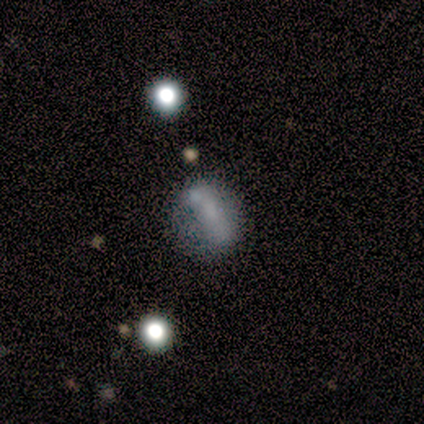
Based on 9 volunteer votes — Morphology: type=smooth (56%); roundness=round (60%); merging=none (56%).